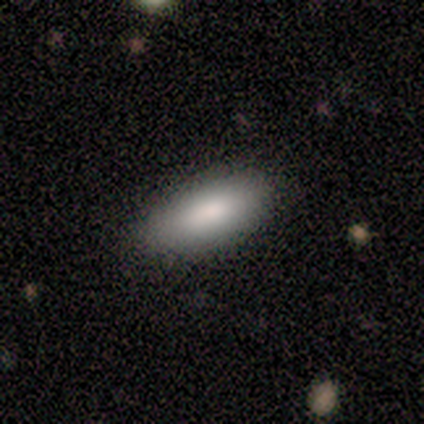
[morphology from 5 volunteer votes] Q: Smooth or featured?
A: smooth (80%); runner-up: featured or disk (20%)
Q: How rounded?
A: in between (75%); runner-up: cigar-shaped (25%)
Q: Merging?
A: none (80%); runner-up: minor disturbance (20%)